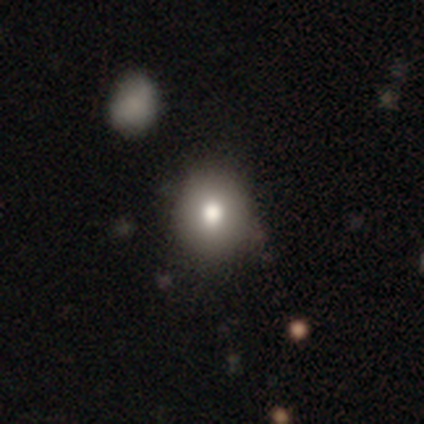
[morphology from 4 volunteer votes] type=smooth (50%, tied with featured or disk); roundness=round (50%, tied with in between); merging=none (75%).